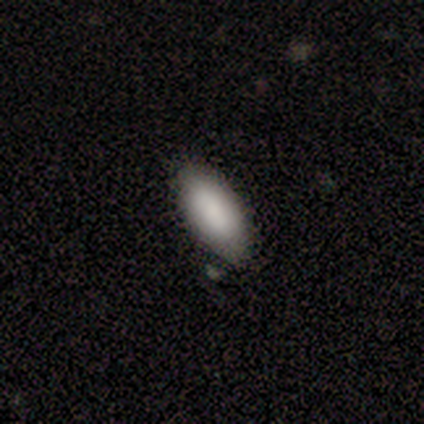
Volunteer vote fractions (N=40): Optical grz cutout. It shows a smooth galaxy with no disk features (75%) that is in between round and cigar-shaped (90%). Merging: none (70%).